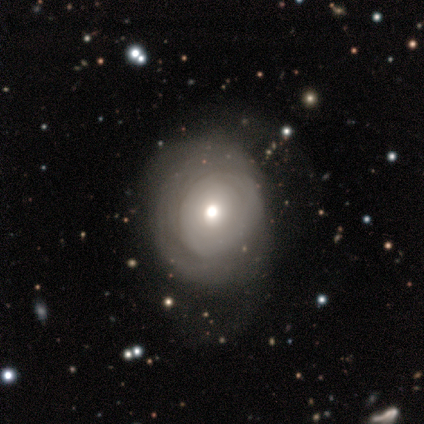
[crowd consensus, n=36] Smooth or featured?
  - featured or disk: 64% *
  - smooth: 28%
  - star or artifact: 8%
Edge-on disk?
  - no: 96% *
  - yes: 4%
Bar?
  - no: 86% *
  - weak: 9%
  - strong: 5%
Spiral arms?
  - no: 59% *
  - yes: 41%
Bulge size?
  - moderate: 55% *
  - small: 27%
  - large: 9%
  - dominant: 5%
  - none: 5%
Merging?
  - none: 42% *
  - major disturbance: 30%
  - minor disturbance: 27%
  - merger: 0%